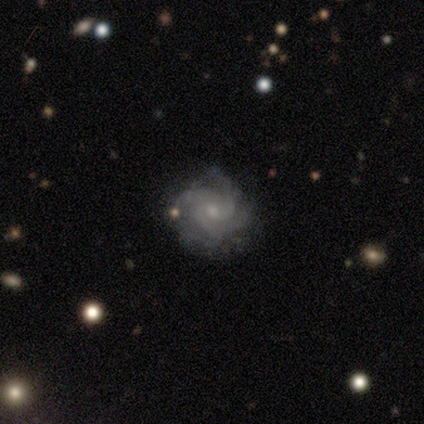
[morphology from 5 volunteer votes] type=featured or disk (80%); edge-on=no (100%); bar=no (100%); spiral arms=yes (100%); winding=tight (50%, tied with medium); arm count=3 (75%); bulge=moderate (50%, tied with small); merging=none (75%).